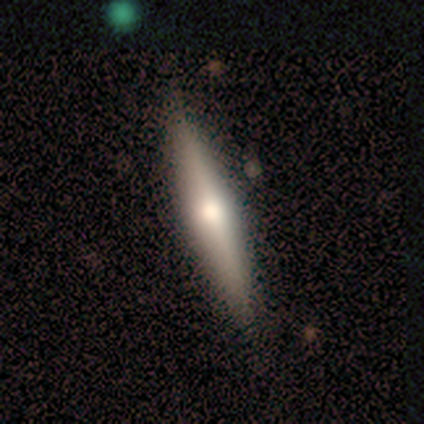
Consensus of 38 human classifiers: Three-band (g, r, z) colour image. It shows a featured or disk galaxy (45%) viewed edge-on (100%) with a rounded central bulge (82%). Merging: none (91%).